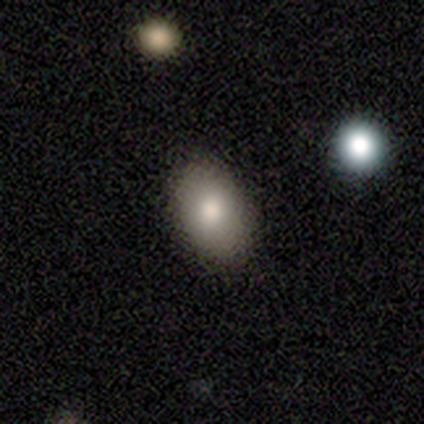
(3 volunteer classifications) A smooth galaxy with no disk features (67%) that is in between round and cigar-shaped (50%, tied with cigar-shaped). Merging: none (50%, tied with minor disturbance).